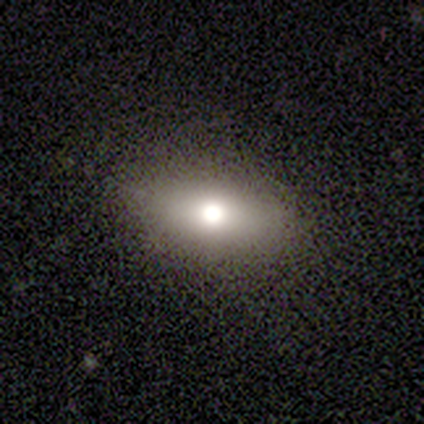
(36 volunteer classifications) smooth 61%, featured or disk 22%, star or artifact 17%. Down the decision tree: how rounded — in between (95%); merging — none (90%).